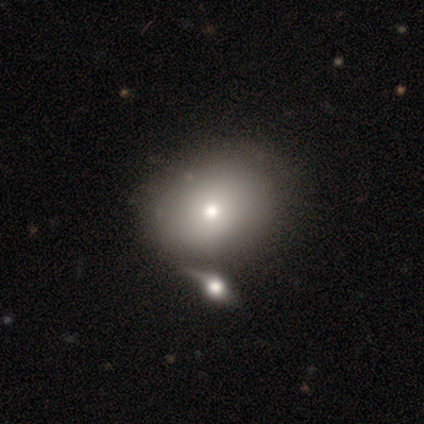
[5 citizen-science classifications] smooth_or_featured: smooth (p=0.80) [alt: featured or disk p=0.20]
how_rounded: round (p=0.75) [alt: in between p=0.25]
merging: none (p=0.60) [alt: major disturbance p=0.20]